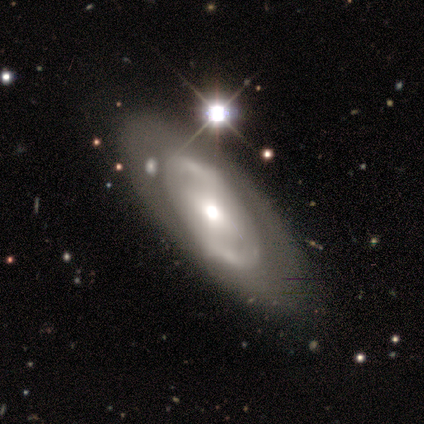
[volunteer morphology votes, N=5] This appears to be a featured or disk galaxy (60%) with no bar (67%), no spiral arms (67%) and a moderate central bulge (100%). Merging: none (75%).